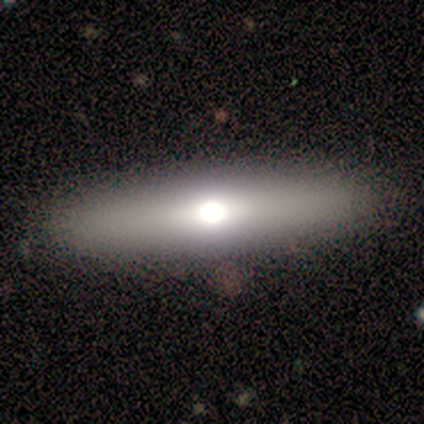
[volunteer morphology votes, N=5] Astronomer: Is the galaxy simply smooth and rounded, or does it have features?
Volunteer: featured or disk — 60% (runner-up: smooth, 40%).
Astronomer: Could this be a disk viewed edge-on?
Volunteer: yes — 100%.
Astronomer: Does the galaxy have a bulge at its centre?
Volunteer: rounded — 67%.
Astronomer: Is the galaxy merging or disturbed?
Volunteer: none — 100%.